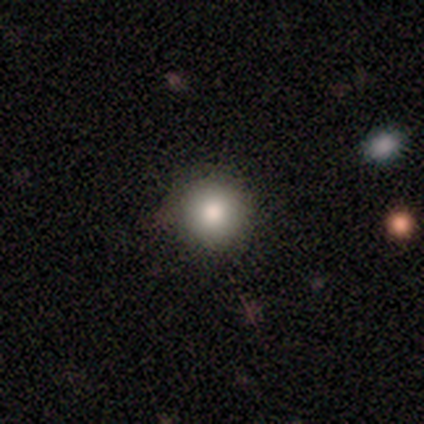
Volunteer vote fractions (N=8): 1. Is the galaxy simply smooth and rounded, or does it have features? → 75% smooth, 25% star or artifact, 0% featured or disk.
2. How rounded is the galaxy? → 100% round, 0% in between, 0% cigar-shaped.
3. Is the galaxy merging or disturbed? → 100% none, 0% minor disturbance, 0% major disturbance, 0% merger.